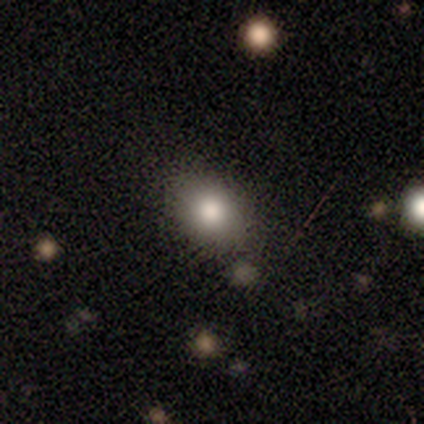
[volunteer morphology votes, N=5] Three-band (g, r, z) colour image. It shows a smooth galaxy with no disk features (100%) that is in between round and cigar-shaped (100%). Merging: none (100%).